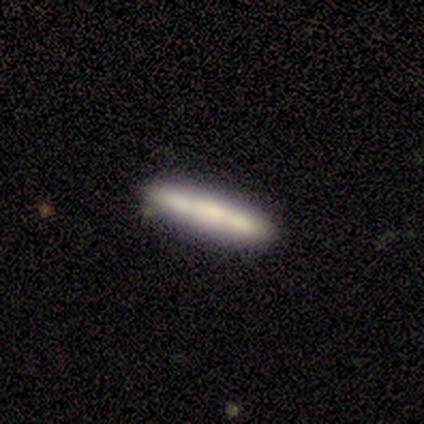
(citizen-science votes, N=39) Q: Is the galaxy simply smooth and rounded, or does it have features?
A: smooth — 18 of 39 (46%, tied with featured or disk).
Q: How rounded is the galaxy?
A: cigar-shaped — 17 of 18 (94%).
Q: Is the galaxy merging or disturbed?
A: none — 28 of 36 (78%).